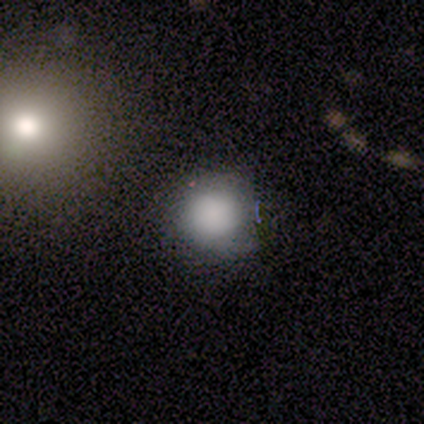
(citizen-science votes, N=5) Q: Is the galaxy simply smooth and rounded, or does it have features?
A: smooth — 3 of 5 (60%).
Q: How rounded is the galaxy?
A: round — 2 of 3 (67%).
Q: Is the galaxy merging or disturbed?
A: merger — 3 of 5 (60%).